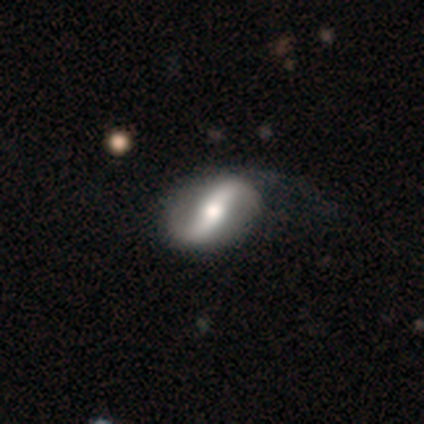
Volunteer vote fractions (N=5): This is clearly a featured or disk galaxy (100%). It is clearly not viewed edge-on (100%). Bar: likely strong (60%). Spiral arm pattern: clearly yes (80%). Spiral arm count: clearly 2 (100%). Spiral winding: clearly loose (100%). Central bulge: likely moderate (60%). Merging: likely none (60%).